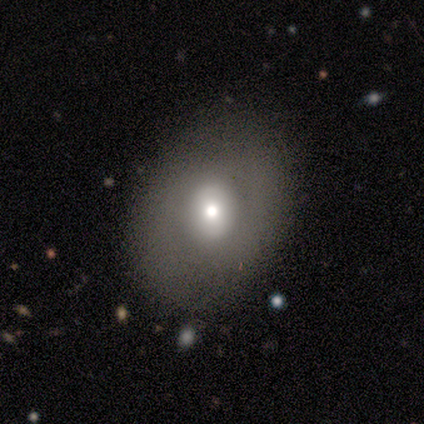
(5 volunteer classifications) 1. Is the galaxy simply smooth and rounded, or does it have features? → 80% smooth, 20% star or artifact, 0% featured or disk.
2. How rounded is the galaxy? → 50% round (tied), 50% in between (tied), 0% cigar-shaped.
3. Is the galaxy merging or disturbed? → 75% none, 25% major disturbance, 0% minor disturbance, 0% merger.